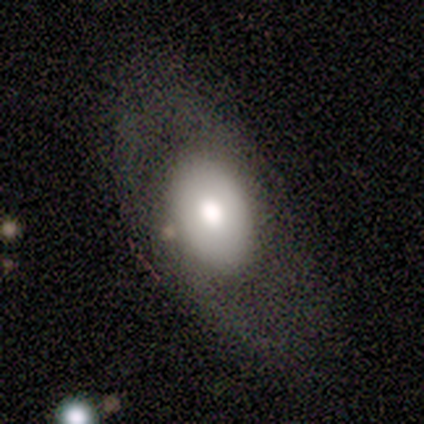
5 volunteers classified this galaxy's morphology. Volunteers were most divided on "merging" (2-way tie): none: 40%, minor disturbance: 40%, major disturbance: 20%, merger: 0%. More confident: edge-on disk — no (100%); bar — no (100%); spiral arms — no (67%); bulge size — large (67%); smooth or featured — featured or disk (60%).